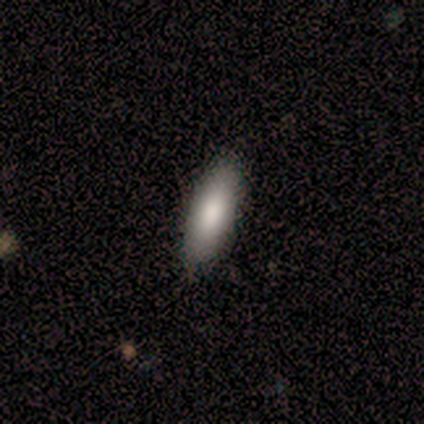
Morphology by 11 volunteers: Smooth or featured? 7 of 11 (64%) said smooth. How rounded? 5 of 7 (71%) said in between. Merging? 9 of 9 (100%) said none.